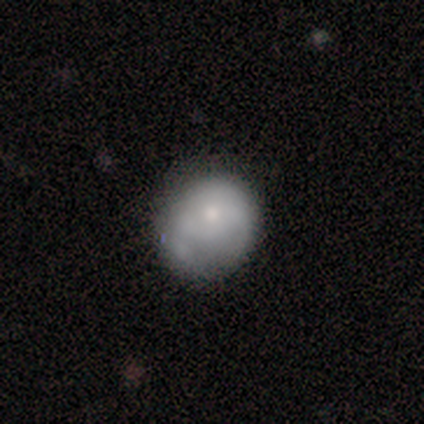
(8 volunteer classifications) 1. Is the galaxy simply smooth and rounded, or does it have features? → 50% smooth, 38% featured or disk, 12% star or artifact.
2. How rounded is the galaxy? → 100% round, 0% in between, 0% cigar-shaped.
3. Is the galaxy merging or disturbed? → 43% major disturbance, 29% none, 14% minor disturbance, 14% merger.